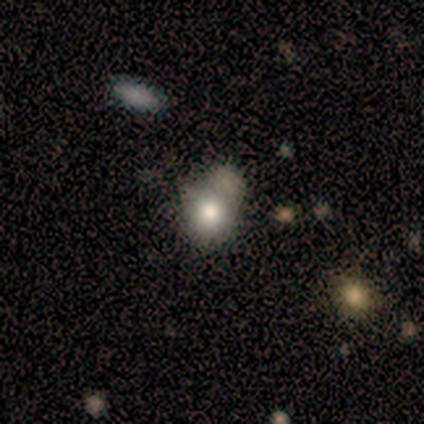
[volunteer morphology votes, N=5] Smooth or featured? 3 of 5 (60%) said smooth. How rounded? 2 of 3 (67%) said round. Merging? 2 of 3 (67%) said minor disturbance.